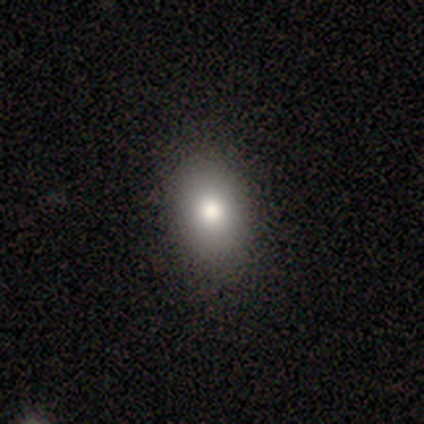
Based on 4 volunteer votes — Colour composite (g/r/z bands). It shows a smooth galaxy with no disk features (75%) that is in between round and cigar-shaped (100%). Merging: none (100%).